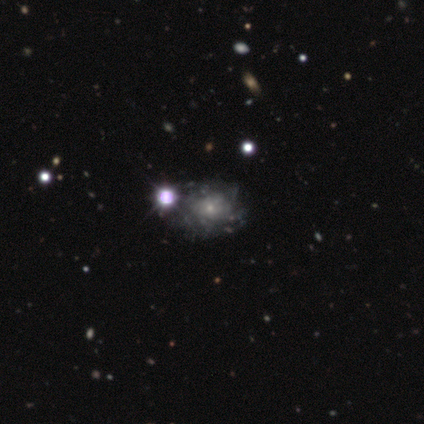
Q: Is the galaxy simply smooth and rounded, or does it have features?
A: featured or disk — 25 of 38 (66%).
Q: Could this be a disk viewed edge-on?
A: no — 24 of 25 (96%).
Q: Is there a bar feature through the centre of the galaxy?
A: no — 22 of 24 (92%).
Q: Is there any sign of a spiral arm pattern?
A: yes — 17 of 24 (71%).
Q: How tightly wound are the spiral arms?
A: tight — 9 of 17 (53%).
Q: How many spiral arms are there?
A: can't tell — 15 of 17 (88%).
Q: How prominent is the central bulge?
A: small — 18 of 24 (75%).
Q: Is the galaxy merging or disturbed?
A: none — 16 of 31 (52%).